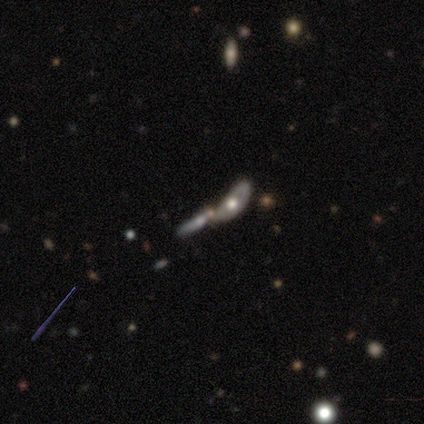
A featured or disk galaxy (47%) viewed edge-on (71%) with a rounded central bulge (80%).

Vote fractions:
- Smooth or featured? featured or disk: 47% / smooth: 33% / star or artifact: 20%
- Edge-on disk? yes: 71% / no: 29%
- Edge-on bulge? rounded: 80% / none: 20% / boxy: 0%
- Merging? merger: 83% / major disturbance: 17% / none: 0% / minor disturbance: 0%